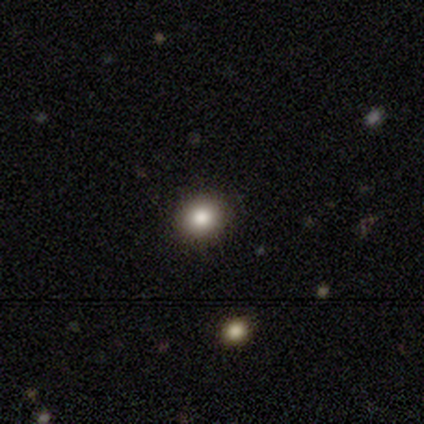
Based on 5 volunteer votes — A smooth galaxy with no disk features (100%) that is round (80%). Merging: none (100%).